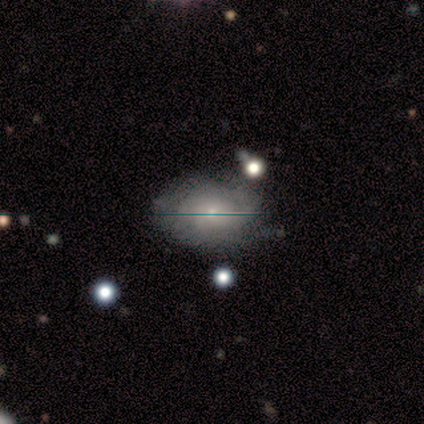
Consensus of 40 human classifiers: This is likely a featured or disk galaxy (70%). It is clearly not viewed edge-on (96%). Bar: clearly no (81%). Spiral arm pattern: likely yes (74%). Spiral arm count: likely can't tell (65%). Spiral winding: likely tight (70%). Central bulge: possibly moderate (48%). Merging: marginally none (44%, tied with minor disturbance).